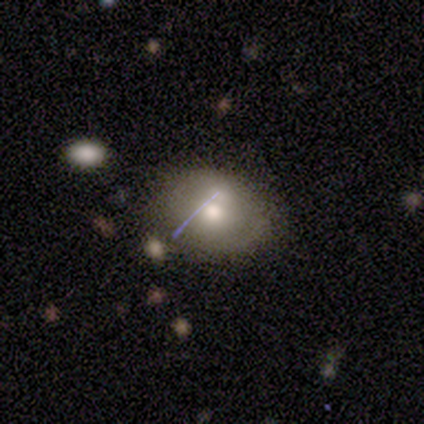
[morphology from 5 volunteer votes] smooth 80%, featured or disk 20%, star or artifact 0%. Down the decision tree: how rounded — round (100%); merging — none (60%).